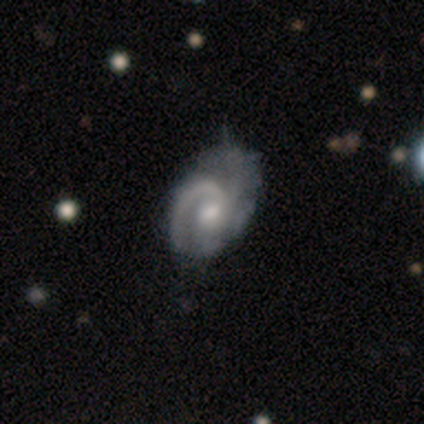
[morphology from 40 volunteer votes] Volunteers were most divided on "merging": minor disturbance: 32%, major disturbance: 25%, none: 20%, merger: 0%. Remaining: edge-on disk — no (100%); spiral arms — yes (97%); smooth or featured — featured or disk (90%); bar — no (67%); bulge size — moderate (64%); spiral winding — medium (60%); spiral arm count — 1 (46%).